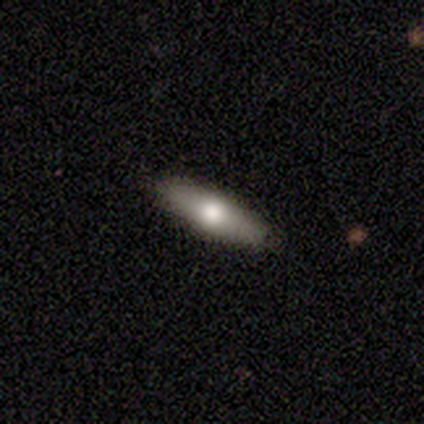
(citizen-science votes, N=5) This is clearly a featured or disk galaxy (80%). It is likely viewed edge-on (75%). Edge-on bulge: likely rounded (67%). Merging: clearly none (100%).